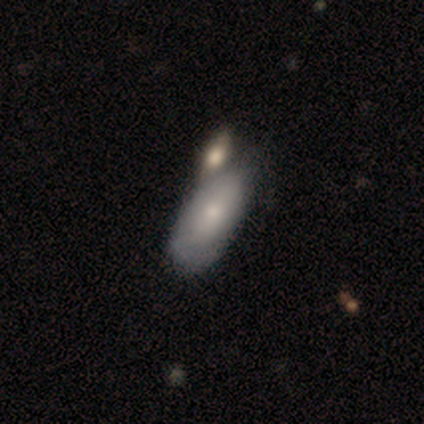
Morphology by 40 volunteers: A smooth galaxy with no disk features (70%) that is in between round and cigar-shaped (93%). Merging: none (28%, tied with merger).